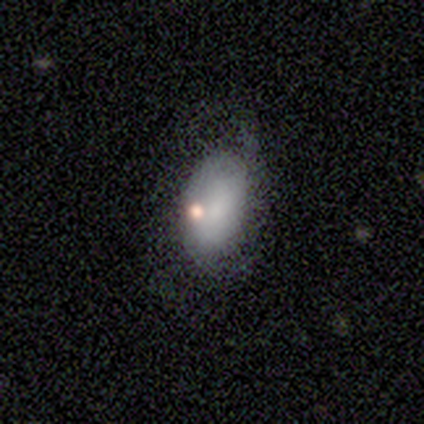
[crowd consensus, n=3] This appears to be a featured or disk galaxy (100%) with no bar (100%), no spiral arms (100%) and a moderate central bulge (33%, tied with small and none). Merging: minor disturbance (100%).